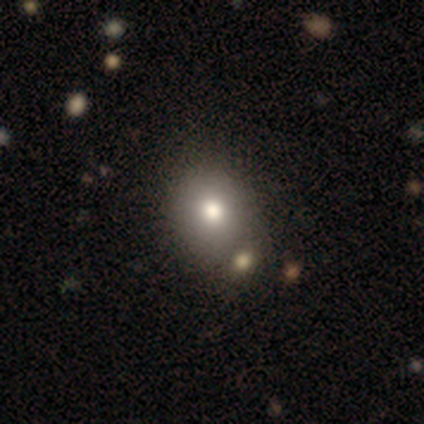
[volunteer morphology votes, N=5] smooth-or-featured: smooth: 80% | featured or disk: 20% | star or artifact: 0%
  how-rounded: round: 50% (tied) | in between: 50% (tied) | cigar-shaped: 0%
  merging: none: 60% | minor disturbance: 40% | major disturbance: 0% | merger: 0%